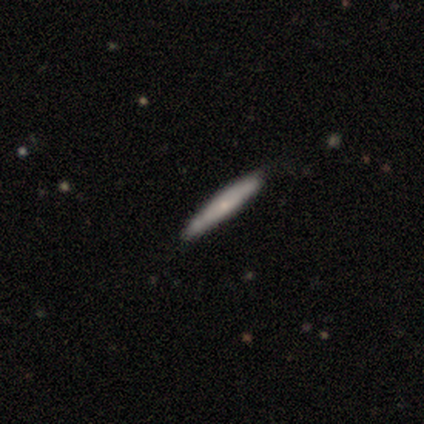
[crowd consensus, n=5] Smooth or featured?
  - smooth: 60% *
  - featured or disk: 40%
  - star or artifact: 0%
How rounded?
  - cigar-shaped: 100% *
  - round: 0%
  - in between: 0%
Merging?
  - none: 80% *
  - minor disturbance: 20%
  - major disturbance: 0%
  - merger: 0%